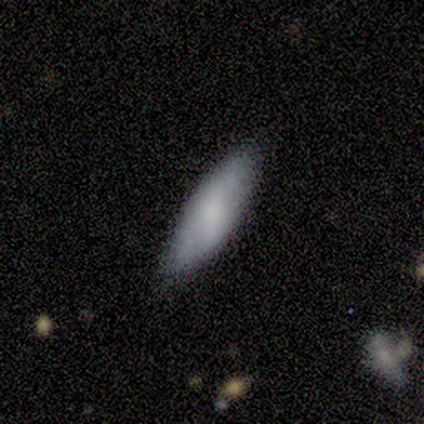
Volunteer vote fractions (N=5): Overall: smooth (80%). How rounded: in between (50%, tied with cigar-shaped). Merging: none (100%).